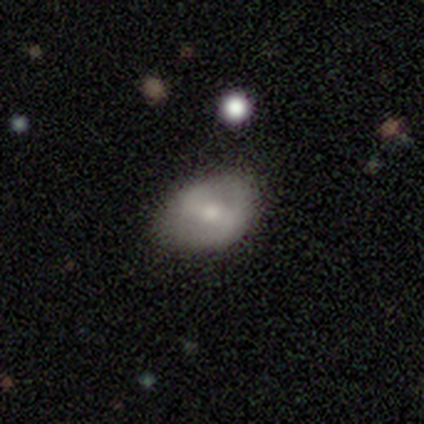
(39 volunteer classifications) Smooth or featured? featured or disk (49%)
Edge-on disk? no (95%)
Bar? strong (44%)
Spiral arms? yes (78%)
Spiral winding? medium (43%, tied with loose)
Spiral arm count? 2 (71%)
Bulge size? moderate (50%, tied with small)
Merging? none (81%)